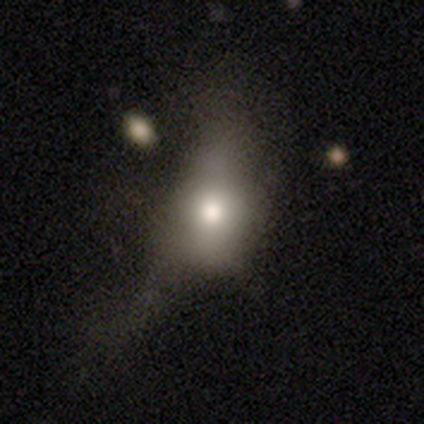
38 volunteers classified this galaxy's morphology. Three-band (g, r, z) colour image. It shows a smooth galaxy with no disk features (68%) that is in between round and cigar-shaped (73%). Merging: major disturbance (51%).